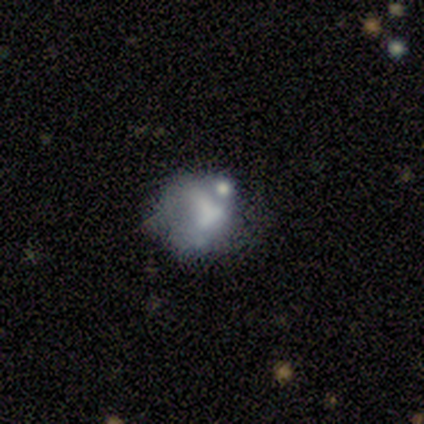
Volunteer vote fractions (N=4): Smooth or featured: smooth — 50% (tied with featured or disk — 50%)
How rounded: round — 100%
Merging: major disturbance — 50% (minor disturbance — 25%)